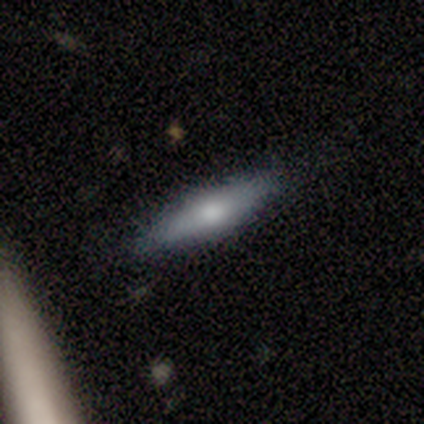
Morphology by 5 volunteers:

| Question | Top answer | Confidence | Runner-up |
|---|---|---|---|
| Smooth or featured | smooth | 60% | featured or disk (40%) |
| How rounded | cigar-shaped | 100% | — |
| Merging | none | 100% | — |